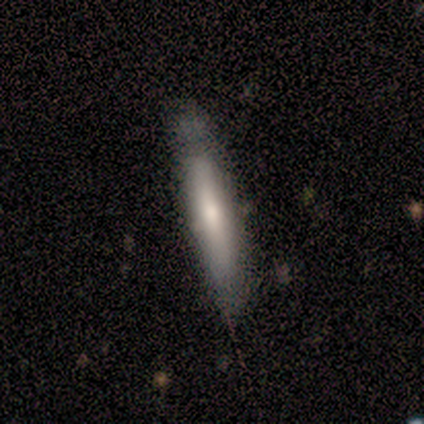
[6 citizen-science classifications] This appears to be a smooth galaxy with no disk features (67%) that is cigar-shaped (100%). Merging: none (50%, tied with minor disturbance).